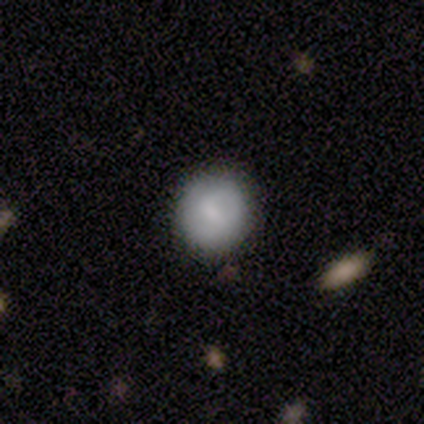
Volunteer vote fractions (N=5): Smooth or featured?
  - smooth: 60% *
  - featured or disk: 40%
  - star or artifact: 0%
How rounded?
  - round: 100% *
  - in between: 0%
  - cigar-shaped: 0%
Merging?
  - none: 80% *
  - minor disturbance: 20%
  - major disturbance: 0%
  - merger: 0%